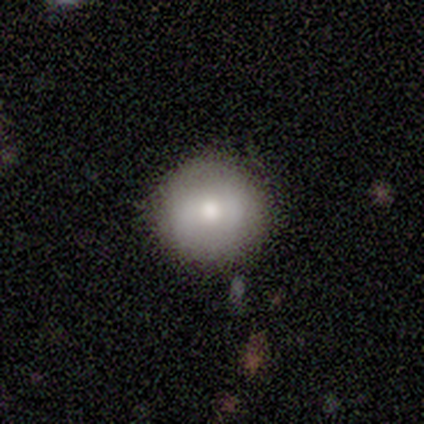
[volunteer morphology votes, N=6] This is possibly a smooth galaxy (50%). How rounded: clearly round (100%). Merging: clearly none (100%).